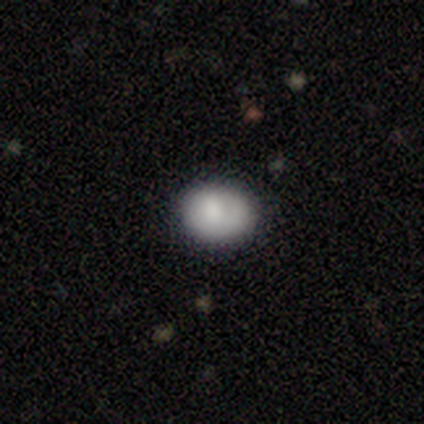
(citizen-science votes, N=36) Morphology: type=smooth (92%); roundness=in between (55%); merging=none (77%).